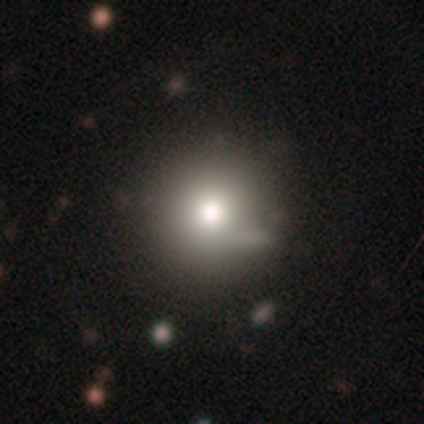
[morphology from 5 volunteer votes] Q: Smooth or featured?
A: smooth (100%)
Q: How rounded?
A: round (80%); runner-up: in between (20%)
Q: Merging?
A: none (80%); runner-up: minor disturbance (20%)